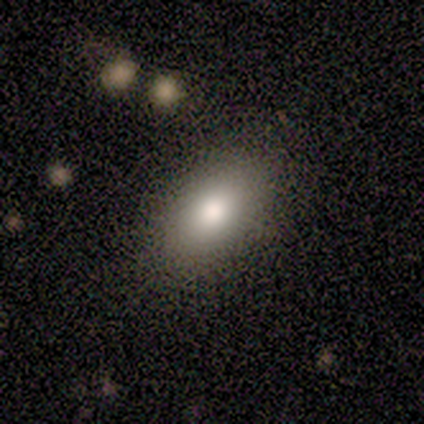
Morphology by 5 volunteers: smooth_or_featured: smooth (p=1.00)
how_rounded: in between (p=1.00)
merging: none (p=1.00)